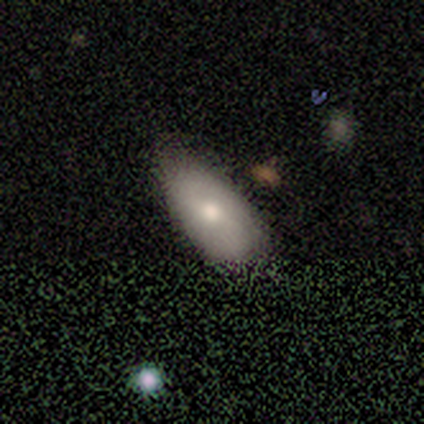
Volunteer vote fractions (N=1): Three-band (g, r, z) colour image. It shows a smooth galaxy with no disk features (100%) that is in between round and cigar-shaped (100%). Merging: none (100%).